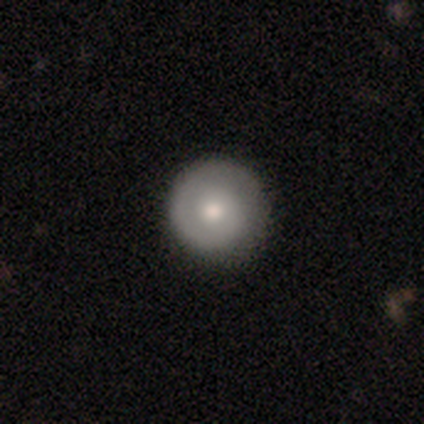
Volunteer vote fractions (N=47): smooth-or-featured: smooth: 49% | featured or disk: 47% | star or artifact: 4%
  how-rounded: round: 100% | in between: 0% | cigar-shaped: 0%
  merging: none: 87% | major disturbance: 9% | minor disturbance: 4% | merger: 0%